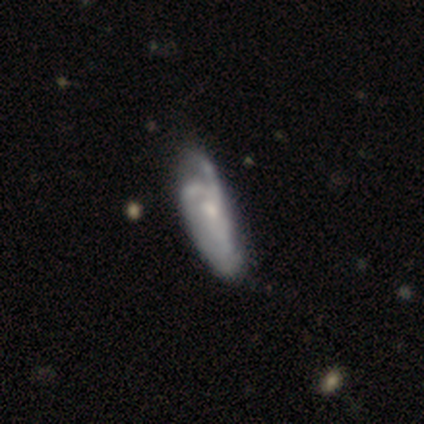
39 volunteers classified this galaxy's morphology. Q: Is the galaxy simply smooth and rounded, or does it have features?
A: featured or disk — 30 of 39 (77%).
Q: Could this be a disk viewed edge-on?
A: no — 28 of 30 (93%).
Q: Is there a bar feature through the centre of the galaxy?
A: no — 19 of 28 (68%).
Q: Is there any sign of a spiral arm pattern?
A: yes — 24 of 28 (86%).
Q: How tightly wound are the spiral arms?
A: medium — 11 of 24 (46%).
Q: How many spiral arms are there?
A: can't tell — 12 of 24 (50%).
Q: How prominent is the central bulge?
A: small — 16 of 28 (57%).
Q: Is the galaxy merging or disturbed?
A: major disturbance — 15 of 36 (42%).